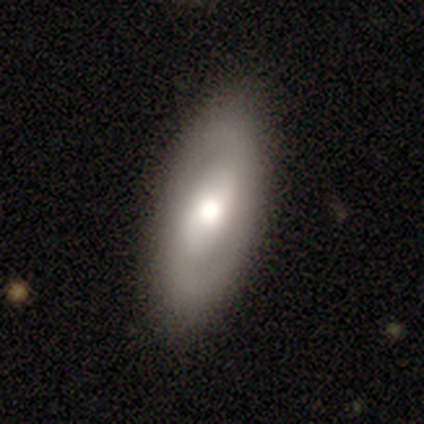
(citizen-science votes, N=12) smooth-or-featured: featured or disk: 58% | smooth: 42% | star or artifact: 0%
  disk-edge-on: no: 86% | yes: 14%
    bar: strong: 50% | weak: 33% | no: 17%
    has-spiral-arms: yes: 67% | no: 33%
      spiral-winding: tight: 50% | medium: 25% | loose: 25%
      spiral-arm-count: 2: 75% | 1: 25% | 3: 0% | 4: 0% | more than 4: 0% | can't tell: 0%
    bulge-size: moderate: 50% | large: 33% | small: 17% | dominant: 0% | none: 0%
  merging: none: 83% | minor disturbance: 17% | major disturbance: 0% | merger: 0%